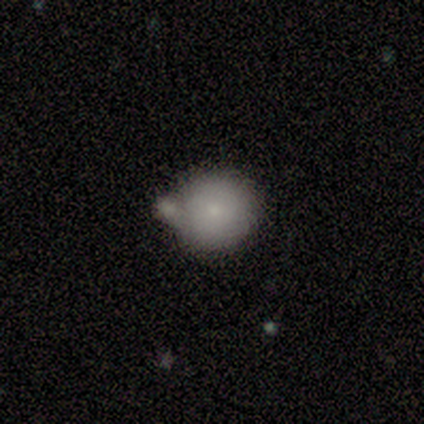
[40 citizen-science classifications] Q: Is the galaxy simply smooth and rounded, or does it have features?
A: smooth — 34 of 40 (85%).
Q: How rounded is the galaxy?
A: round — 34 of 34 (100%).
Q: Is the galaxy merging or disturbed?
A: none — 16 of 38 (42%).